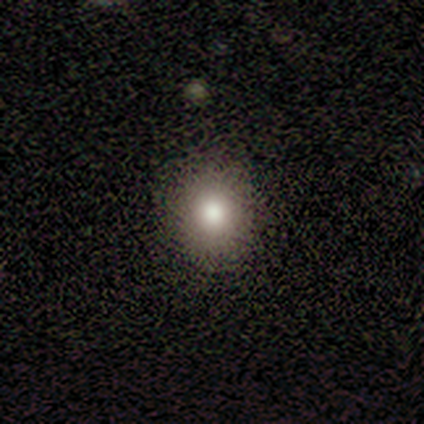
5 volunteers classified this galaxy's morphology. Overall: smooth (100%). How rounded: round (60%; in between 40%). Merging: none (100%).